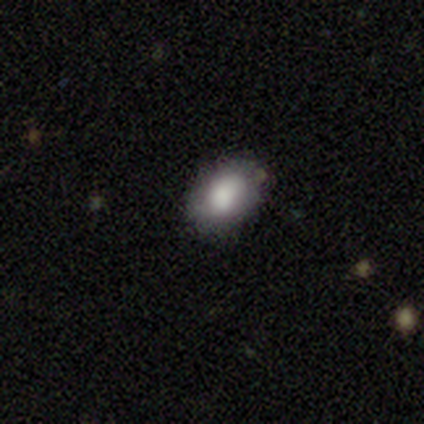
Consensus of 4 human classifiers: smooth_or_featured: smooth (p=1.00)
how_rounded: in between (p=1.00)
merging: none (p=0.75) [alt: minor disturbance p=0.25]